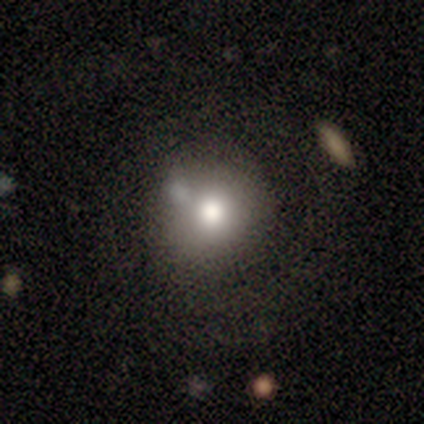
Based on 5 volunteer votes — Smooth or featured? 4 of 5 (80%) said smooth. How rounded? 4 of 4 (100%) said round. Merging? 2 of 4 (50%, tied with minor disturbance) said none.